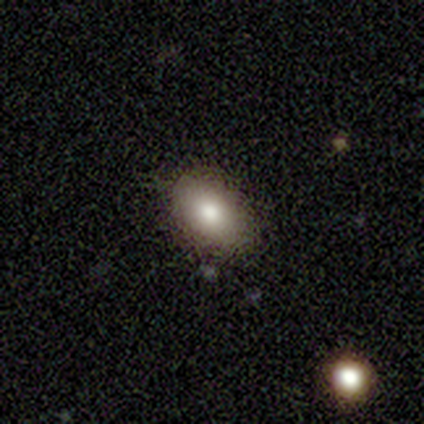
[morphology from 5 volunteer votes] A smooth galaxy with no disk features (80%) that is in between round and cigar-shaped (75%). Merging: none (100%).